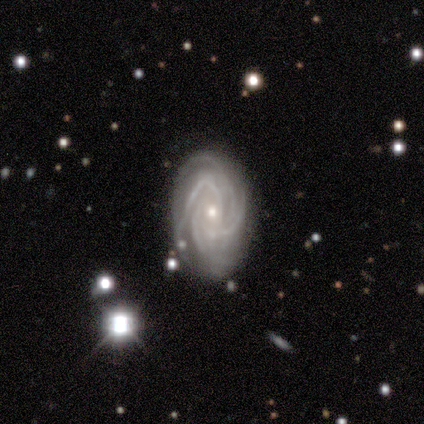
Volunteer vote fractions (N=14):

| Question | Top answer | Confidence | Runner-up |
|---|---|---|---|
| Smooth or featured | featured or disk | 100% | — |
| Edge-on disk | no | 100% | — |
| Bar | no | 86% | weak (14%) |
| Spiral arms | yes | 100% | — |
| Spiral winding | tight | 71% | medium (29%) |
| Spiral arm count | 4 | 50% | can't tell (29%) |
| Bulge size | moderate | 50% | small (43%) |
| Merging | none | 64% | minor disturbance (29%) |